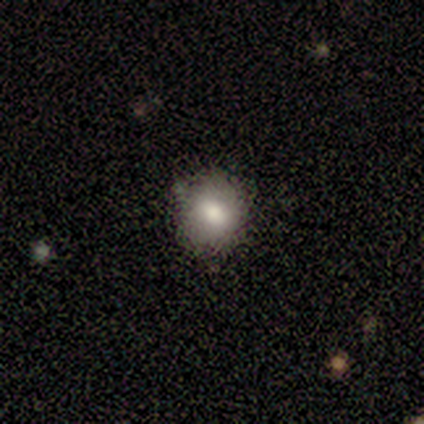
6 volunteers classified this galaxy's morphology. Smooth or featured? 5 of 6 (83%) said smooth. How rounded? 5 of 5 (100%) said round. Merging? 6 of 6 (100%) said none.